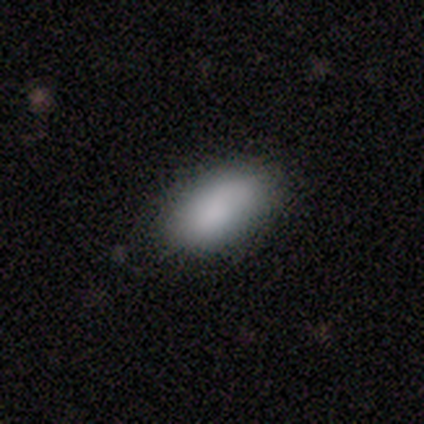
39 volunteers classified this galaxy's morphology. Smooth or featured? smooth (92%)
How rounded? in between (97%)
Merging? none (84%)